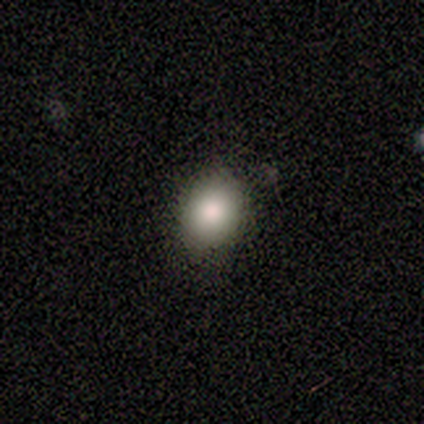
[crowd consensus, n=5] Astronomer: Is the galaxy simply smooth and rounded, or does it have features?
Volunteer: smooth — 100%.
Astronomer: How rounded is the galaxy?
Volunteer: round — 60% (runner-up: in between, 40%).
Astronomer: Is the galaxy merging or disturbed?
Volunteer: none — 80%.